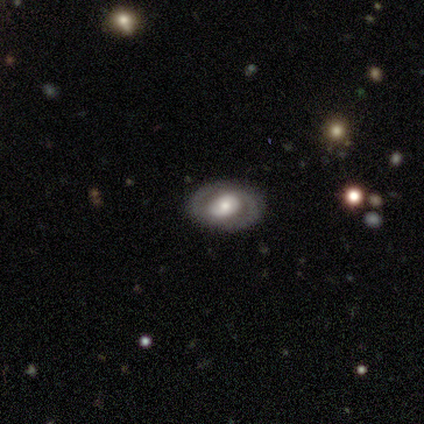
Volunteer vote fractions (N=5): smooth-or-featured: featured or disk: 80% | smooth: 20% | star or artifact: 0%
  disk-edge-on: no: 100% | yes: 0%
    bar: no: 75% | weak: 25% | strong: 0%
    has-spiral-arms: yes: 75% | no: 25%
      spiral-winding: tight: 67% | loose: 33% | medium: 0%
      spiral-arm-count: 2: 100% | 1: 0% | 3: 0% | 4: 0% | more than 4: 0% | can't tell: 0%
    bulge-size: moderate: 100% | dominant: 0% | large: 0% | small: 0% | none: 0%
  merging: none: 100% | minor disturbance: 0% | major disturbance: 0% | merger: 0%